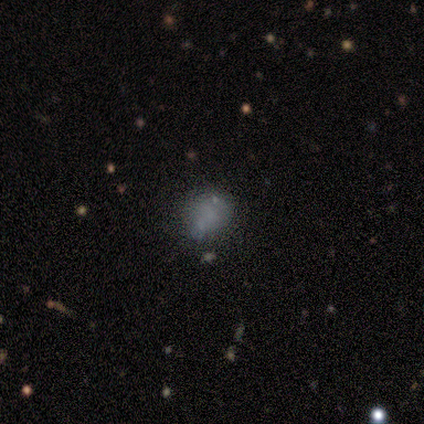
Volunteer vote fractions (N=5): Volunteers were most divided on "smooth or featured" (2-way tie): smooth: 40%, star or artifact: 40%, featured or disk: 20%; "how rounded" (2-way tie): round: 50%, in between: 50%, cigar-shaped: 0%. More confident: merging — none (100%).